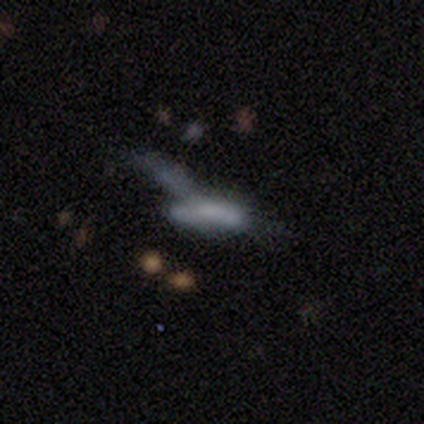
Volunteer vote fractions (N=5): Smooth or featured?
  - smooth: 60% *
  - featured or disk: 20%
  - star or artifact: 20%
How rounded?
  - cigar-shaped: 67% *
  - in between: 33%
  - round: 0%
Merging?
  - merger: 75% *
  - major disturbance: 25%
  - none: 0%
  - minor disturbance: 0%